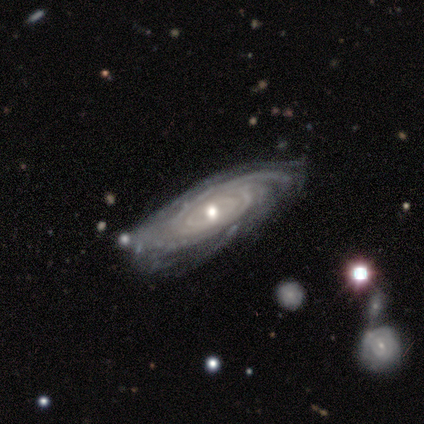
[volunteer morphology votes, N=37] Smooth or featured: featured or disk — 95% (smooth — 3%)
Edge-on disk: no — 94% (yes — 6%)
Bar: no — 73% (weak — 21%)
Spiral arms: yes — 97% (no — 3%)
Spiral winding: tight — 72% (medium — 22%)
Spiral arm count: can't tell — 47% (more than 4 — 19%)
Bulge size: small — 58% (moderate — 36%)
Merging: none — 81% (minor disturbance — 14%)